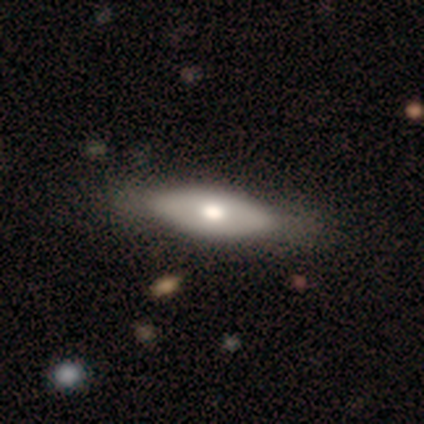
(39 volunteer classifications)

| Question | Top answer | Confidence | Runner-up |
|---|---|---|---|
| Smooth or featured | smooth | 49% | featured or disk (44%) |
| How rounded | in between | 74% | cigar-shaped (26%) |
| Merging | none | 47% | major disturbance (11%) |